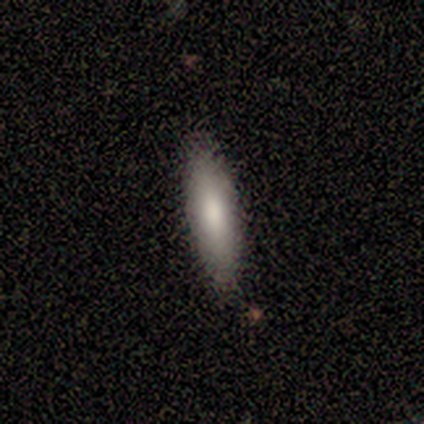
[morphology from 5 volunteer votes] smooth_or_featured: smooth (p=0.80) [alt: featured or disk p=0.20]
how_rounded: in between (p=0.75) [alt: cigar-shaped p=0.25]
merging: none (p=1.00)